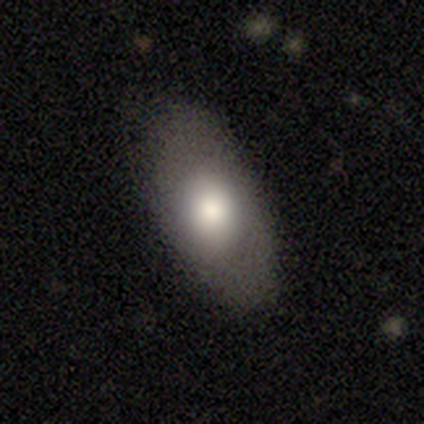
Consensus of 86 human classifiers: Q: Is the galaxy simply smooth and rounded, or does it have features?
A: smooth — 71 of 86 (83%).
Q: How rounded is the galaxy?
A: in between — 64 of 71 (90%).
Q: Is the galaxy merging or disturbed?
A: none — 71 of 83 (86%).